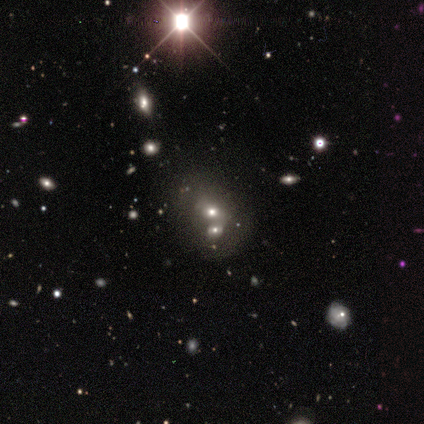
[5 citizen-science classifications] Q: Smooth or featured?
A: smooth (40%); tied with: featured or disk (40%)
Q: How rounded?
A: round (50%); tied with: in between (50%)
Q: Merging?
A: merger (100%)